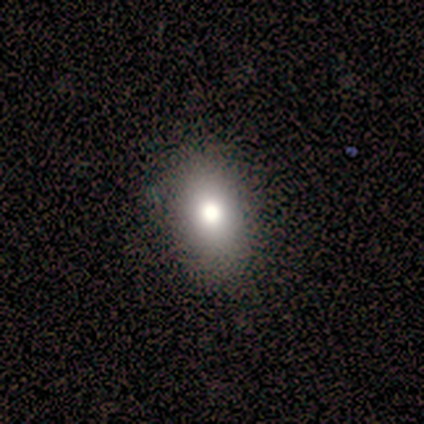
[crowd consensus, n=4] Smooth or featured? 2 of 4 (50%) said featured or disk. Edge-on disk? 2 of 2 (100%) said no. Bar? 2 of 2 (100%) said no. Spiral arms? 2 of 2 (100%) said no. Bulge size? 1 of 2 (50%, tied with moderate) said large. Merging? 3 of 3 (100%) said none.